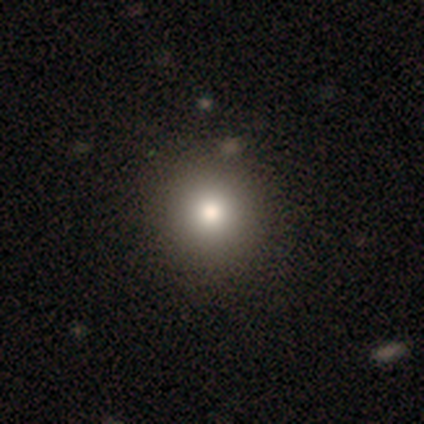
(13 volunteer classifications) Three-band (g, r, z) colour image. It shows a smooth galaxy with no disk features (92%) that is round (100%). Merging: none (92%).